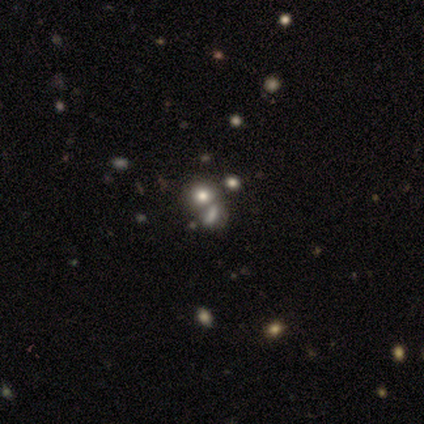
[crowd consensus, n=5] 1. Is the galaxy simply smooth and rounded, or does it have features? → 60% smooth, 40% featured or disk, 0% star or artifact.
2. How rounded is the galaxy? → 67% in between, 33% round, 0% cigar-shaped.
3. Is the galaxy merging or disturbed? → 100% merger, 0% none, 0% minor disturbance, 0% major disturbance.